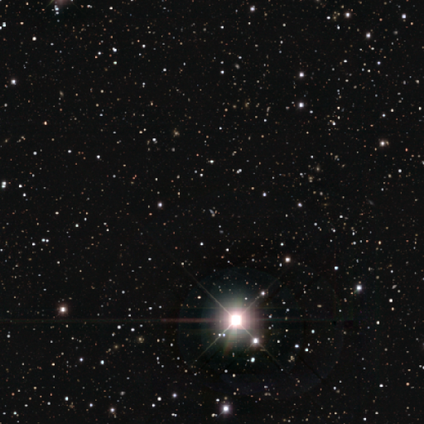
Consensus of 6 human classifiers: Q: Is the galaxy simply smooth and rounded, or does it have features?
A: star or artifact — 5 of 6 (83%).